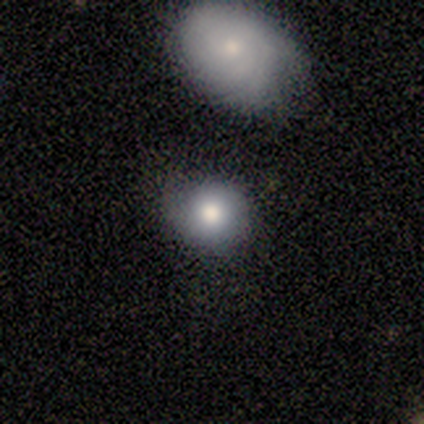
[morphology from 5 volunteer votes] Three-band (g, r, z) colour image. It shows a smooth galaxy with no disk features (80%) that is round (100%). Merging: none (75%).